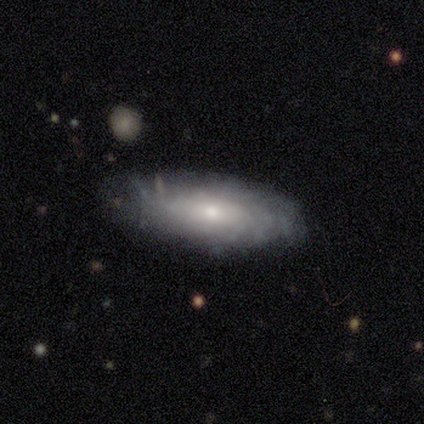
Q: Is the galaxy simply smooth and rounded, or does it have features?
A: smooth — 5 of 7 (71%).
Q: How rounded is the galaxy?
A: in between — 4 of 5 (80%).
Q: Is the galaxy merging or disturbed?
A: none — 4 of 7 (57%).